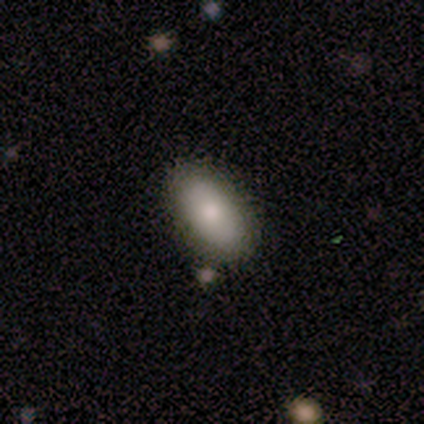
Smooth or featured? smooth (92%)
How rounded? in between (94%)
Merging? none (81%)